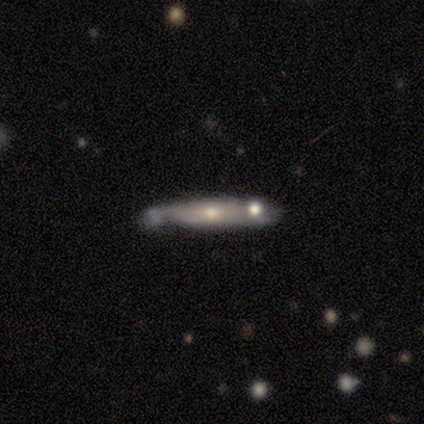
Smooth or featured?
  - smooth: 60% *
  - featured or disk: 40%
  - star or artifact: 0%
How rounded?
  - cigar-shaped: 100% *
  - round: 0%
  - in between: 0%
Merging?
  - minor disturbance: 60% *
  - none: 40%
  - major disturbance: 0%
  - merger: 0%